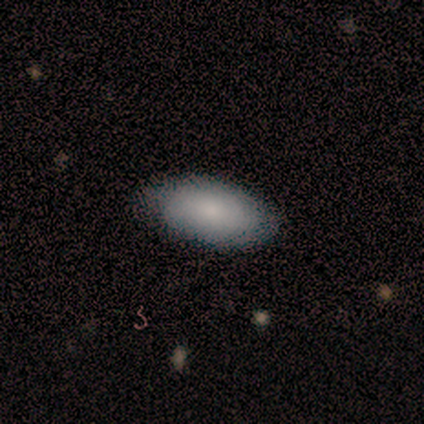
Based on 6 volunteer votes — Overall: smooth (100%). How rounded: in between (100%). Merging: none (83%).